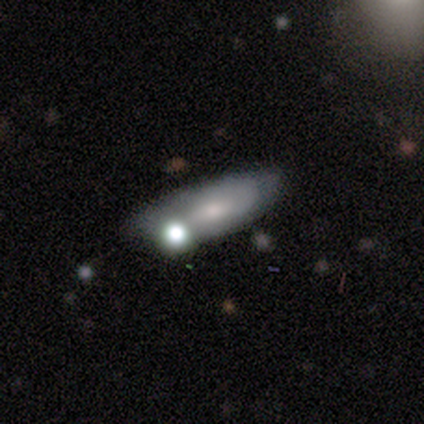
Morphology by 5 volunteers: This appears to be a smooth galaxy with no disk features (60%) that is cigar-shaped (67%). Merging: none (40%).